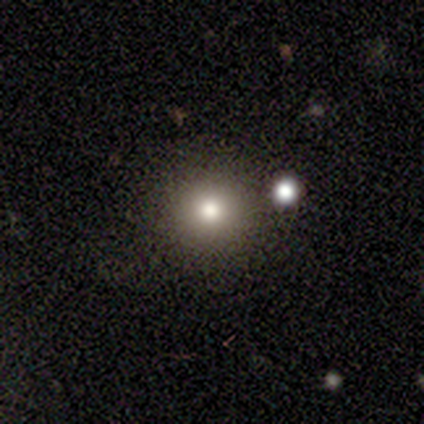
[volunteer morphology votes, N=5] smooth 80%, star or artifact 20%, featured or disk 0%. Down the decision tree: how rounded — round (100%); merging — none (75%).